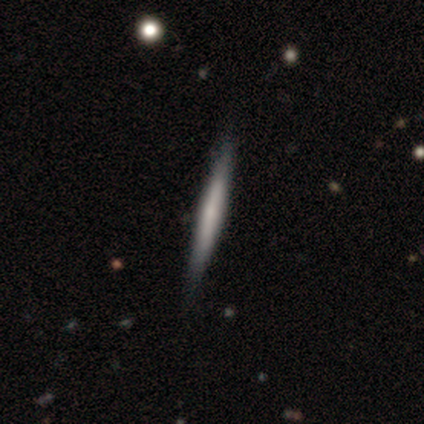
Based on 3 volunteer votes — smooth 67%, featured or disk 33%, star or artifact 0%. Down the decision tree: how rounded — cigar-shaped (100%); merging — none (100%).